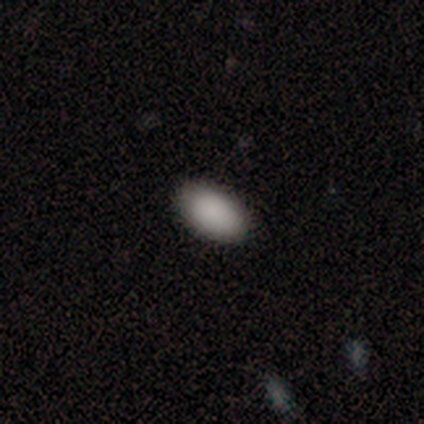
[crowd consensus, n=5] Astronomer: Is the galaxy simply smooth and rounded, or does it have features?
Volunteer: smooth — 100%.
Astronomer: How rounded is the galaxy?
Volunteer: in between — 100%.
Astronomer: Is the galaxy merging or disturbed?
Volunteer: none — 100%.